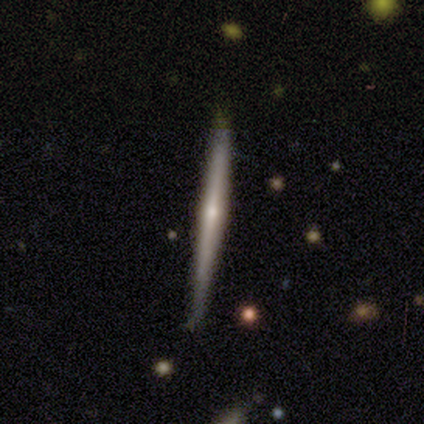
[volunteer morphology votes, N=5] Volunteers were most divided on "edge-on bulge" (2-way tie): none: 50%, rounded: 50%, boxy: 0%. More confident: edge-on disk — yes (100%); smooth or featured — featured or disk (80%); merging — none (80%).